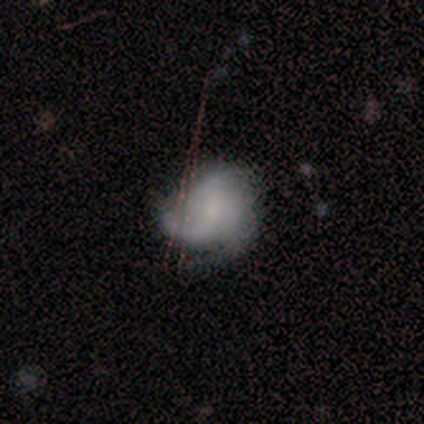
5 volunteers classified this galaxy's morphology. Smooth or featured? featured or disk (60%)
Edge-on disk? no (100%)
Bar? no (100%)
Spiral arms? yes (67%)
Spiral winding? tight (50%, tied with loose)
Spiral arm count? 2 (50%, tied with can't tell)
Bulge size? none (67%)
Merging? none (50%, tied with minor disturbance)